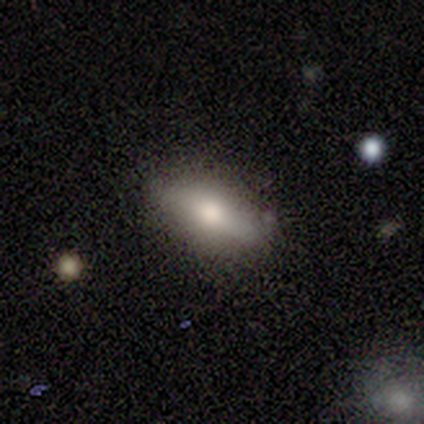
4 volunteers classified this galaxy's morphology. Smooth or featured? smooth (75%)
How rounded? in between (100%)
Merging? none (50%)